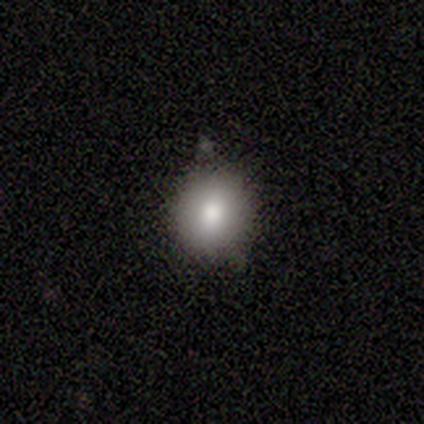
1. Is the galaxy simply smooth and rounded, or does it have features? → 80% smooth, 20% star or artifact, 0% featured or disk.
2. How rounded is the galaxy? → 100% round, 0% in between, 0% cigar-shaped.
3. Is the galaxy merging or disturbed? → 50% none (tied), 50% minor disturbance (tied), 0% major disturbance, 0% merger.